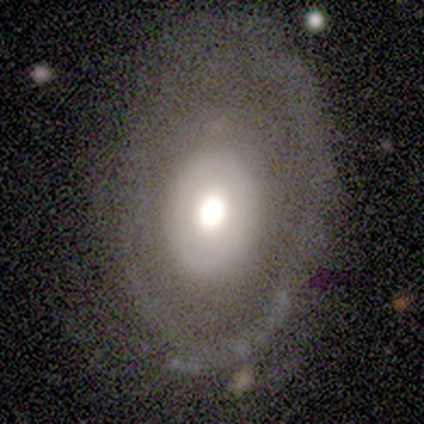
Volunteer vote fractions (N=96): smooth_or_featured: featured or disk (p=0.66) [alt: smooth p=0.25]
disk_edge_on: no (p=0.94) [alt: yes p=0.06]
bar: no (p=0.95) [alt: strong p=0.03]
has_spiral_arms: no (p=0.75) [alt: yes p=0.25]
bulge_size: large (p=0.42) [tied with: moderate p=0.42]
merging: none (p=0.62) [alt: minor disturbance p=0.28]